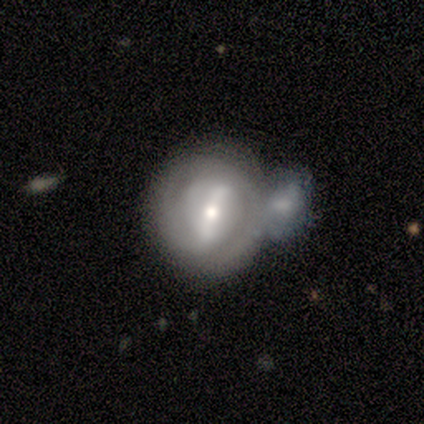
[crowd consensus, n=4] Volunteers were most divided on "merging": merger: 50%, none: 25%, major disturbance: 25%, minor disturbance: 0%. More confident: smooth or featured — featured or disk (100%); edge-on disk — no (100%); bar — strong (75%); spiral arms — yes (75%); bulge size — moderate (75%); spiral winding — medium (67%); spiral arm count — 2 (67%).